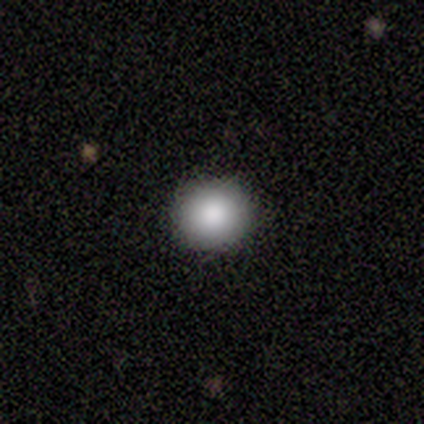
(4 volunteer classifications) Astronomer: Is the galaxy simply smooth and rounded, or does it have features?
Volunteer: smooth — 50%, tied with star or artifact at 50%.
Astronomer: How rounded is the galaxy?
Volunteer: in between — 100%.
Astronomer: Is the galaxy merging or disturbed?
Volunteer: none — 50%, tied with minor disturbance at 50%.